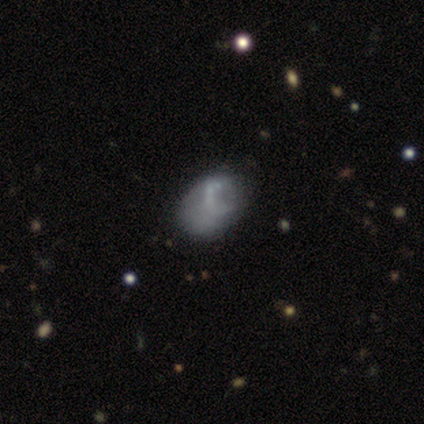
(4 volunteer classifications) Smooth or featured? smooth (100%)
How rounded? in between (75%)
Merging? none (75%)